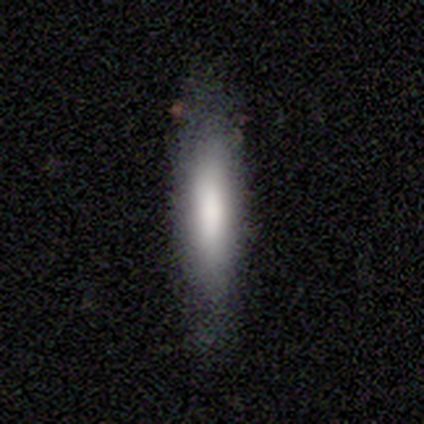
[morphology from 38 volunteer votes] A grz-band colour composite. It shows a smooth galaxy with no disk features (76%) that is cigar-shaped (76%). Merging: none (84%).